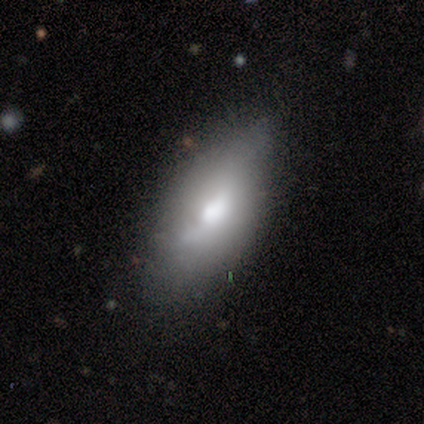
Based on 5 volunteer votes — smooth-or-featured: featured or disk: 60% | smooth: 40% | star or artifact: 0%
  disk-edge-on: no: 100% | yes: 0%
    bar: no: 67% | strong: 33% | weak: 0%
    has-spiral-arms: no: 67% | yes: 33%
    bulge-size: moderate: 67% | large: 33% | dominant: 0% | small: 0% | none: 0%
  merging: minor disturbance: 60% | none: 20% | major disturbance: 20% | merger: 0%